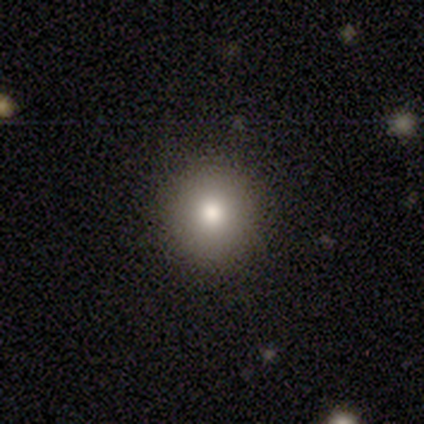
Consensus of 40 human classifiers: Overall: smooth (88%). How rounded: round (94%). Merging: none (86%).